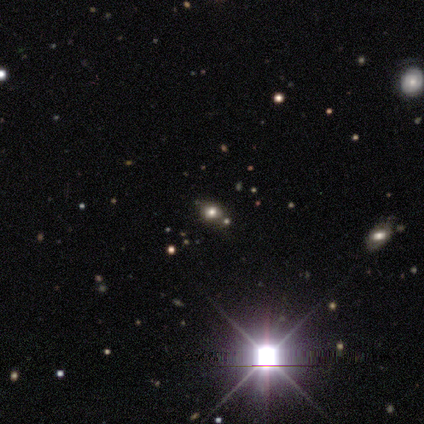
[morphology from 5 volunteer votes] smooth_or_featured: star or artifact (p=1.00)